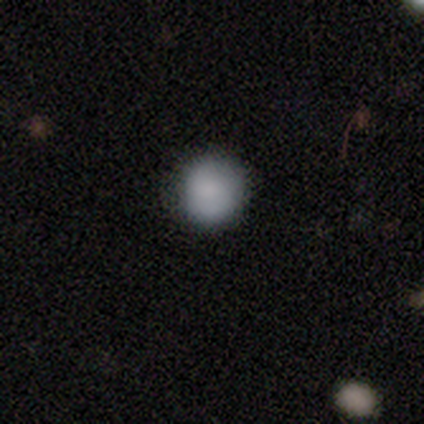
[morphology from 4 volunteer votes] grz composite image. It shows a smooth galaxy with no disk features (75%) that is round (100%). Merging: none (67%).